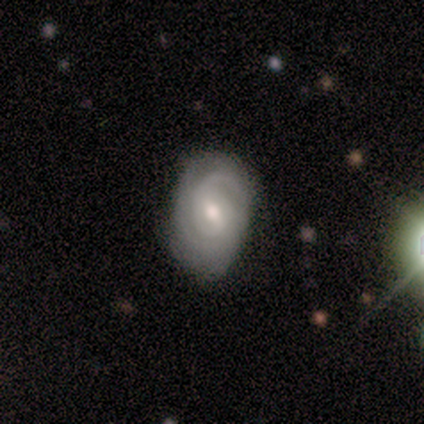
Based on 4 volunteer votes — This is likely a featured or disk galaxy (75%). It is clearly not viewed edge-on (100%). Bar: marginally strong (33%, tied with weak and no). Spiral arm pattern: clearly yes (100%). Spiral arm count: likely 3 (67%). Spiral winding: clearly tight (100%). Central bulge: likely moderate (67%). Merging: clearly none (100%).